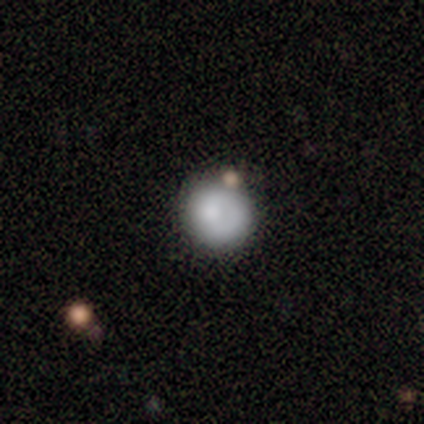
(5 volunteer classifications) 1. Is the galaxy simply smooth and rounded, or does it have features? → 40% smooth (tied), 40% featured or disk (tied), 20% star or artifact.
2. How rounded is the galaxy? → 100% round, 0% in between, 0% cigar-shaped.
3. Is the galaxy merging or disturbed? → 100% none, 0% minor disturbance, 0% major disturbance, 0% merger.